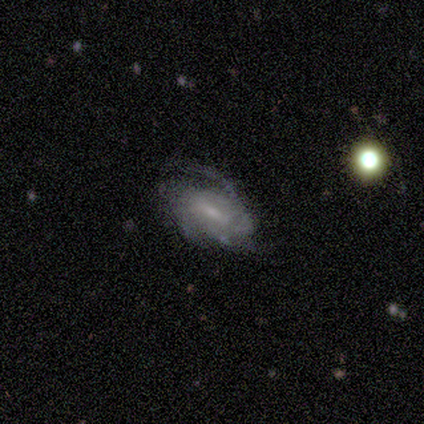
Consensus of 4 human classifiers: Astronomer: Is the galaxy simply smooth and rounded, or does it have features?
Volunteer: featured or disk — 100%.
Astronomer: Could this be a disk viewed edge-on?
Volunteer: no — 100%.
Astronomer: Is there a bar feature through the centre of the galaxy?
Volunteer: strong — 50%.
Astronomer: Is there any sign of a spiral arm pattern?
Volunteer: yes — 75%.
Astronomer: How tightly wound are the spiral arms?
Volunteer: tight — 33%, tied with medium and loose at 33%.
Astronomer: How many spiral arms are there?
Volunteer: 2 — 33%, tied with 3 and can't tell at 33%.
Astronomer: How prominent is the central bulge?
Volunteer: small — 75%.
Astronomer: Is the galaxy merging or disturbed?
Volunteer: none — 50%, tied with major disturbance at 50%.